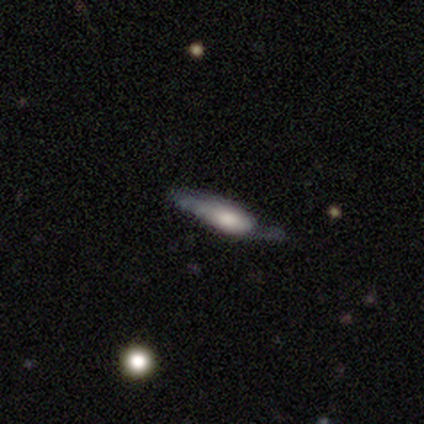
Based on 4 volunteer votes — A smooth galaxy with no disk features (50%, tied with featured or disk) that is cigar-shaped (100%).

Vote fractions:
- Smooth or featured? smooth: 50% (tied) / featured or disk: 50% (tied) / star or artifact: 0%
- How rounded? cigar-shaped: 100% / round: 0% / in between: 0%
- Merging? minor disturbance: 50% / none: 25% / major disturbance: 25% / merger: 0%